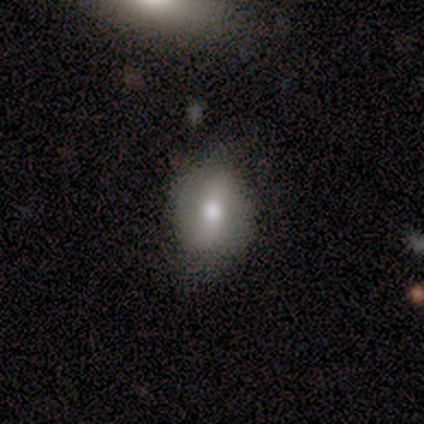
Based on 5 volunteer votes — Smooth or featured? featured or disk (60%)
Edge-on disk? no (100%)
Bar? strong (33%, tied with weak and no)
Spiral arms? no (67%)
Bulge size? moderate (100%)
Merging? none (100%)